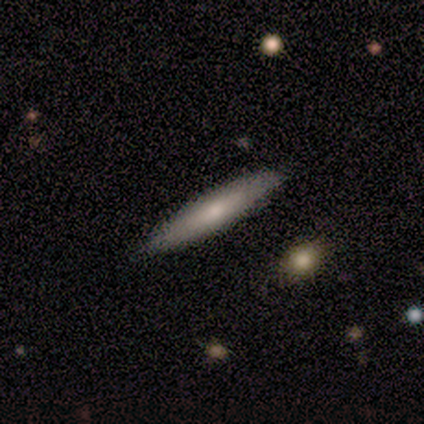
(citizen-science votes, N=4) Smooth or featured? featured or disk (75%)
Edge-on disk? yes (100%)
Edge-on bulge? none (100%)
Merging? none (100%)